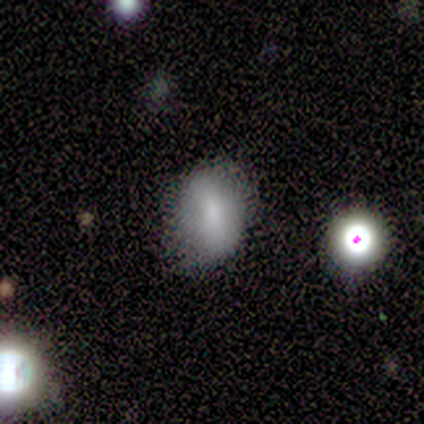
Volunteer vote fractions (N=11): Smooth or featured: smooth — 82% (featured or disk — 9%)
How rounded: in between — 67% (round — 33%)
Merging: none — 80% (minor disturbance — 20%)